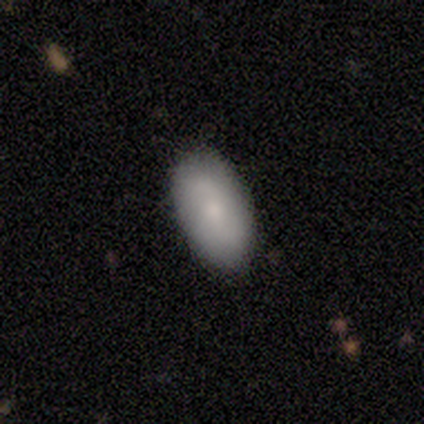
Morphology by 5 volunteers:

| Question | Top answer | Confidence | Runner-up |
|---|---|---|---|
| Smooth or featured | smooth | 60% | featured or disk (40%) |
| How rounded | in between | 100% | — |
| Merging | none | 100% | — |